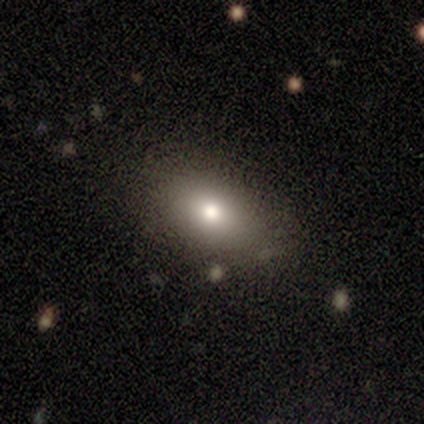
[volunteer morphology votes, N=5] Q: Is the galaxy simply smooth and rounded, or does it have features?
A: smooth — 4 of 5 (80%).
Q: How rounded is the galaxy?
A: in between — 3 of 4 (75%).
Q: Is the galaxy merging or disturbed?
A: none — 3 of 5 (60%).